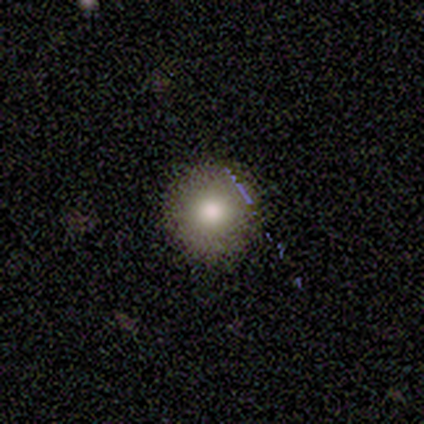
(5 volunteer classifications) Q: Smooth or featured?
A: smooth (80%); runner-up: featured or disk (20%)
Q: How rounded?
A: round (100%)
Q: Merging?
A: none (80%); runner-up: minor disturbance (20%)